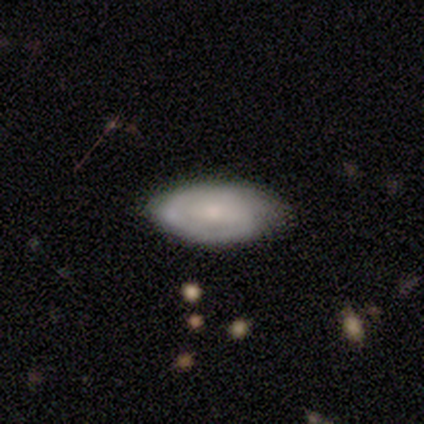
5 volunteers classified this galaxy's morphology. Smooth or featured: smooth — 60% (featured or disk — 40%)
How rounded: in between — 100%
Merging: none — 100%